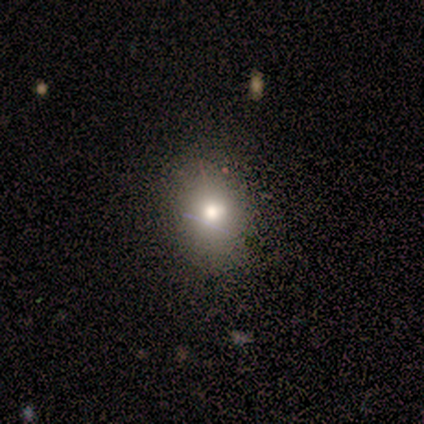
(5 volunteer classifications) Volunteers were most divided on "how rounded" (2-way tie): round: 50%, in between: 50%, cigar-shaped: 0%. More confident: smooth or featured — smooth (80%); merging — none (75%).